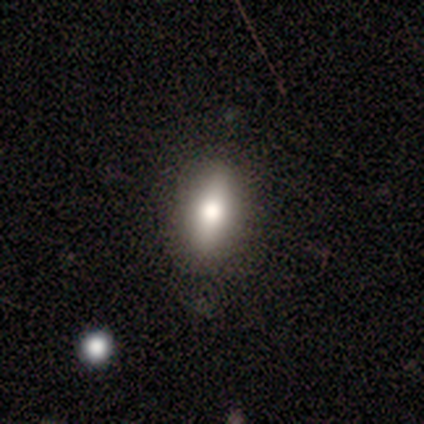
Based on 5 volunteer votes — Q: Smooth or featured?
A: smooth (60%); runner-up: featured or disk (40%)
Q: How rounded?
A: in between (100%)
Q: Merging?
A: none (80%); runner-up: minor disturbance (20%)